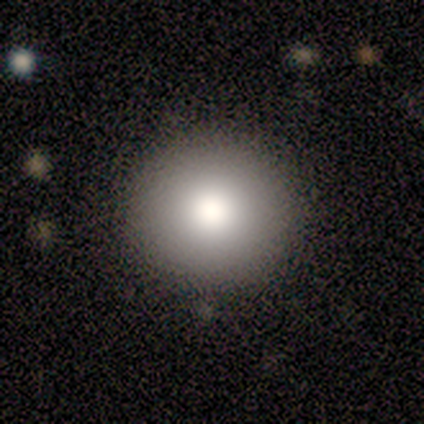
Q: Smooth or featured?
A: smooth (100%)
Q: How rounded?
A: round (100%)
Q: Merging?
A: none (100%)